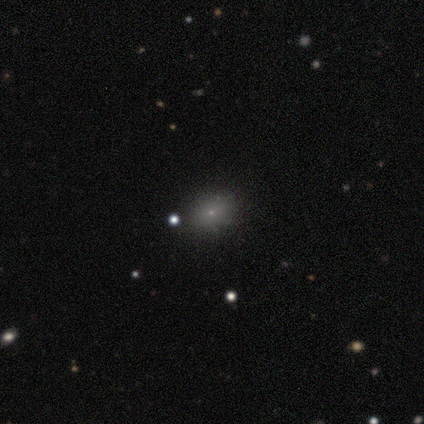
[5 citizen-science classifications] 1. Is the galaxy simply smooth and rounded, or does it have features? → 60% smooth, 40% star or artifact, 0% featured or disk.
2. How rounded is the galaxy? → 100% in between, 0% round, 0% cigar-shaped.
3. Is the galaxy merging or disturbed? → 100% none, 0% minor disturbance, 0% major disturbance, 0% merger.